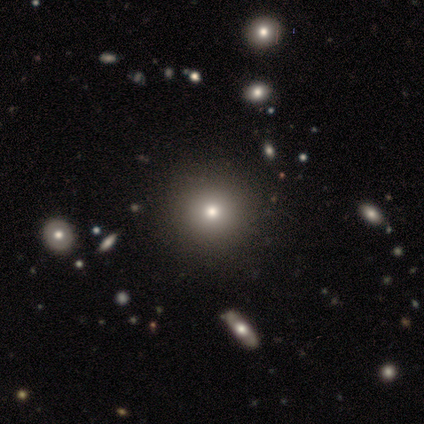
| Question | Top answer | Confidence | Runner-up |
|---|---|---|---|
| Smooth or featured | smooth | 50% | tied: star or artifact (50%) |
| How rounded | round | 100% | — |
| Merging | none | 100% | — |